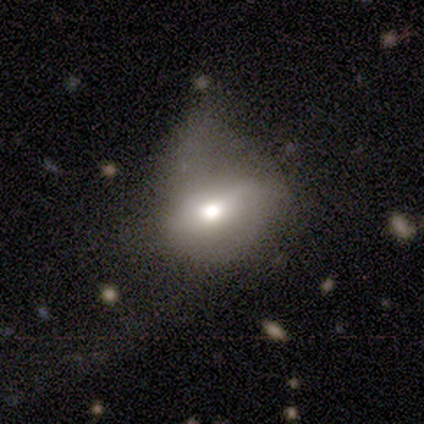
Smooth or featured?
  - smooth: 80% *
  - featured or disk: 20%
  - star or artifact: 0%
How rounded?
  - in between: 75% *
  - round: 25%
  - cigar-shaped: 0%
Merging?
  - major disturbance: 80% *
  - minor disturbance: 20%
  - none: 0%
  - merger: 0%